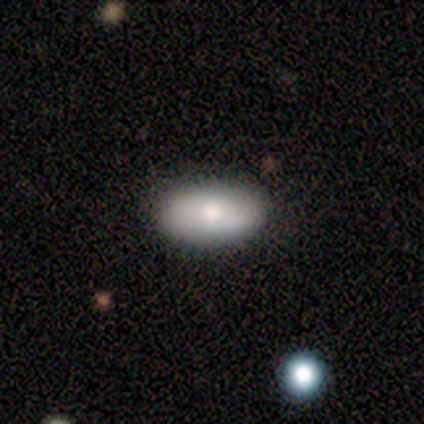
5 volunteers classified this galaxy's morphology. smooth 80%, star or artifact 20%, featured or disk 0%. Down the decision tree: how rounded — in between (100%); merging — none (50%, tied with minor disturbance).